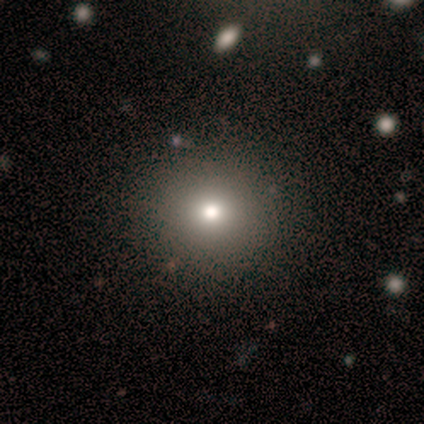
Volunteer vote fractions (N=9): A smooth galaxy with no disk features (89%) that is round (88%). Merging: none (75%).